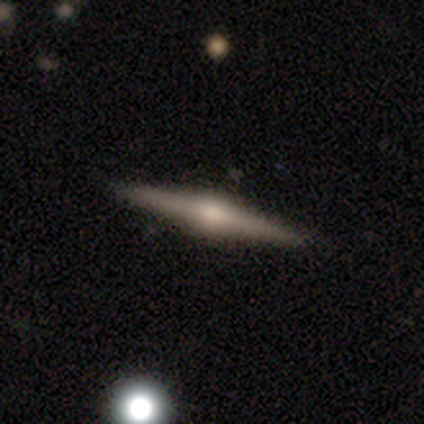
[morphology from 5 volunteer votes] A featured or disk galaxy (100%) viewed edge-on (100%) with a rounded central bulge (100%).

Vote fractions:
- Smooth or featured? featured or disk: 100% / smooth: 0% / star or artifact: 0%
- Edge-on disk? yes: 100% / no: 0%
- Edge-on bulge? rounded: 100% / boxy: 0% / none: 0%
- Merging? none: 100% / minor disturbance: 0% / major disturbance: 0% / merger: 0%